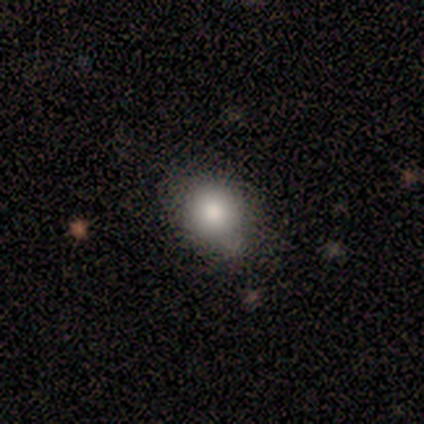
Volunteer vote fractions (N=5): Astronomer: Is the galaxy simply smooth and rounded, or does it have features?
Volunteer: smooth — 80%.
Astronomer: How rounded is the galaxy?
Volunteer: round — 75%.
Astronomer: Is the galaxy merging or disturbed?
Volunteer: minor disturbance — 50%.